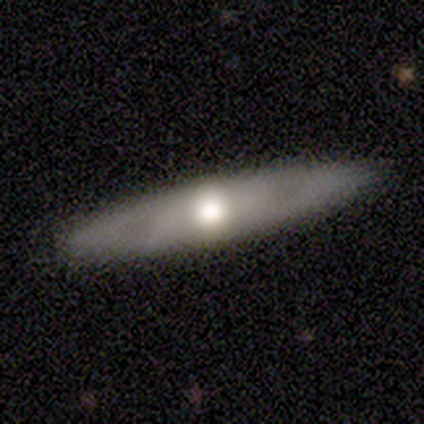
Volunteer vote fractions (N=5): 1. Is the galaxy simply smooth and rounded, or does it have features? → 40% smooth (tied), 40% featured or disk (tied), 20% star or artifact.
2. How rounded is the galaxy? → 100% cigar-shaped, 0% round, 0% in between.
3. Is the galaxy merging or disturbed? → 100% none, 0% minor disturbance, 0% major disturbance, 0% merger.